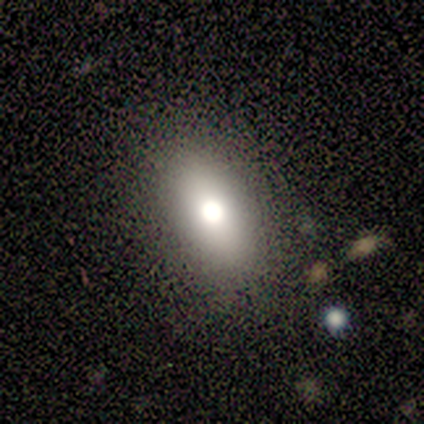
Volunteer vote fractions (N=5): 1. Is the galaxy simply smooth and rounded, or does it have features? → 80% smooth, 20% featured or disk, 0% star or artifact.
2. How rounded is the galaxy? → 100% in between, 0% round, 0% cigar-shaped.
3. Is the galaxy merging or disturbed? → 100% none, 0% minor disturbance, 0% major disturbance, 0% merger.